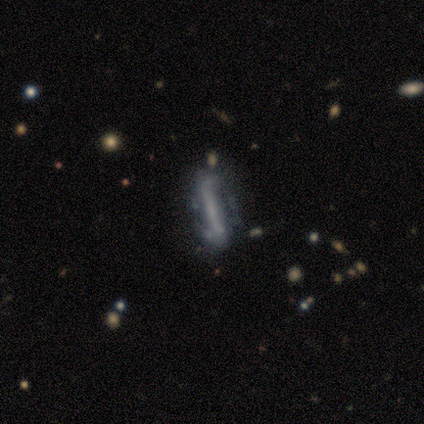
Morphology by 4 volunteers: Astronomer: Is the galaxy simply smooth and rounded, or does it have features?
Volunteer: featured or disk — 50%.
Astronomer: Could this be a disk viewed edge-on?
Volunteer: yes — 50%, tied with no at 50%.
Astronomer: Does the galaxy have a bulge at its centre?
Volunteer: none — 100%.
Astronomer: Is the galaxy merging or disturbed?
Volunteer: minor disturbance — 67%.